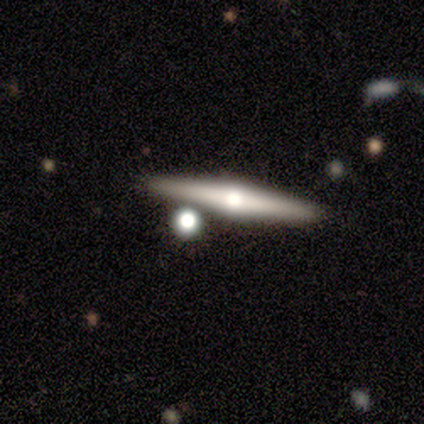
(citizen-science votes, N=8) Smooth or featured?
  - featured or disk: 75% *
  - smooth: 25%
  - star or artifact: 0%
Edge-on disk?
  - yes: 100% *
  - no: 0%
Edge-on bulge?
  - rounded: 100% *
  - boxy: 0%
  - none: 0%
Merging?
  - none: 100% *
  - minor disturbance: 0%
  - major disturbance: 0%
  - merger: 0%